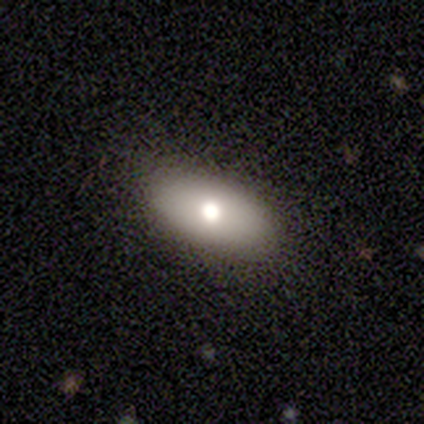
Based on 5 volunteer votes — smooth 80%, star or artifact 20%, featured or disk 0%. Down the decision tree: how rounded — in between (100%); merging — none (75%).